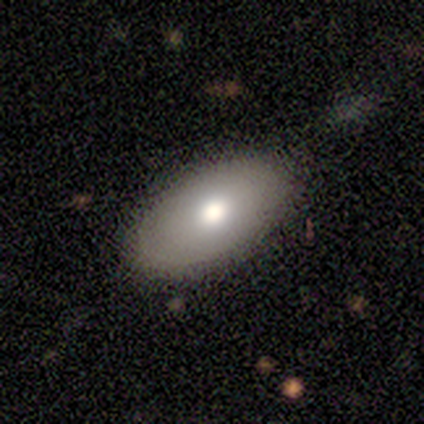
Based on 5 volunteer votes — This is clearly a smooth galaxy (100%). How rounded: clearly in between (100%). Merging: likely none (60%).